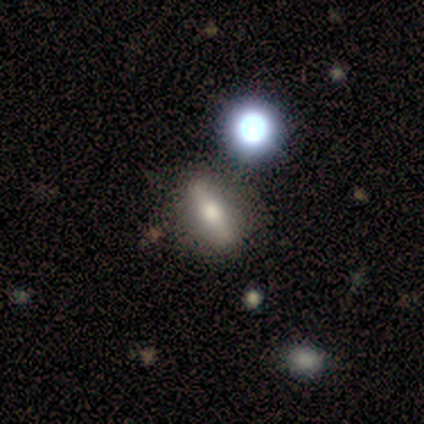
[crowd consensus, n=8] Smooth or featured?
  - featured or disk: 50% *
  - smooth: 38%
  - star or artifact: 12%
Edge-on disk?
  - yes: 75% *
  - no: 25%
Edge-on bulge?
  - boxy: 33% * (tied)
  - none: 33% * (tied)
  - rounded: 33% * (tied)
Merging?
  - none: 71% *
  - minor disturbance: 29%
  - major disturbance: 0%
  - merger: 0%